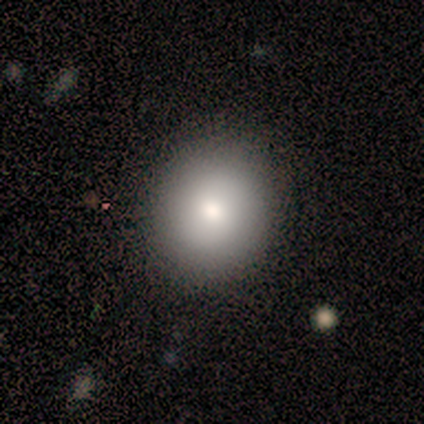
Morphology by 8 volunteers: smooth 88%, star or artifact 12%, featured or disk 0%. Down the decision tree: how rounded — round (57%); merging — none (100%).